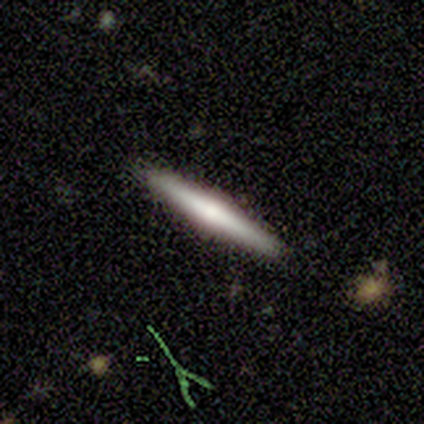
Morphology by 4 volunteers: Smooth or featured? smooth (75%)
How rounded? cigar-shaped (100%)
Merging? none (100%)